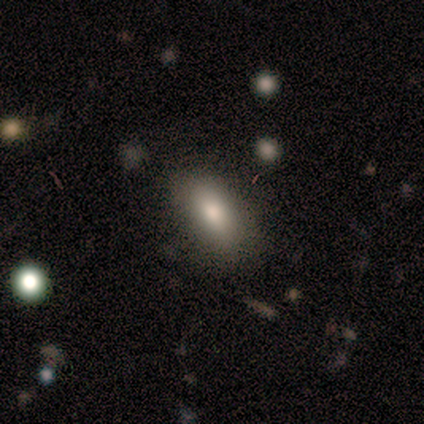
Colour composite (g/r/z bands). It shows a smooth galaxy with no disk features (80%) that is in between round and cigar-shaped (100%). Merging: none (60%).